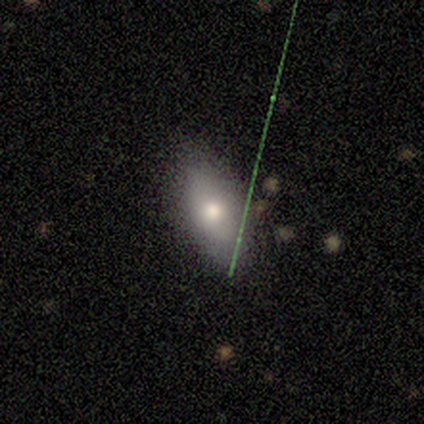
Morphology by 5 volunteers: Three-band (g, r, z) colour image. It shows a smooth galaxy with no disk features (100%) that is in between round and cigar-shaped (100%). Merging: none (100%).